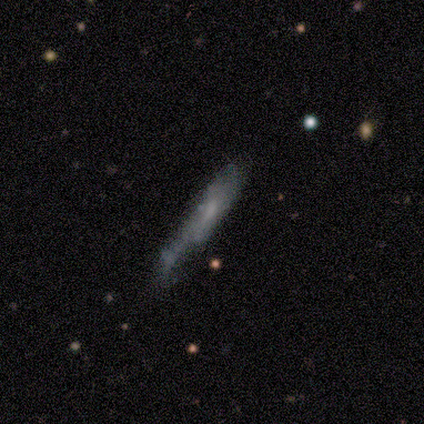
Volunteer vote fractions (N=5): Morphology: type=smooth (80%); roundness=cigar-shaped (75%); merging=minor disturbance (60%).